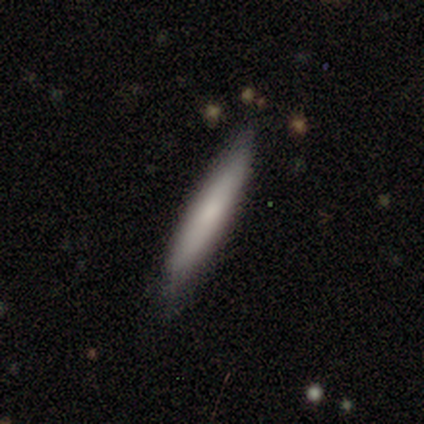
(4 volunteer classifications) smooth-or-featured: smooth: 100% | featured or disk: 0% | star or artifact: 0%
  how-rounded: cigar-shaped: 100% | round: 0% | in between: 0%
  merging: none: 100% | minor disturbance: 0% | major disturbance: 0% | merger: 0%